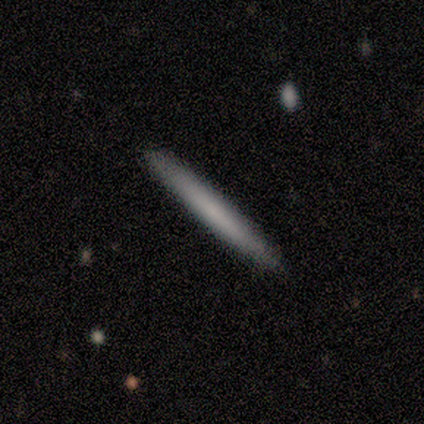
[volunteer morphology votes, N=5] A smooth galaxy with no disk features (60%) that is cigar-shaped (100%). Merging: none (100%).